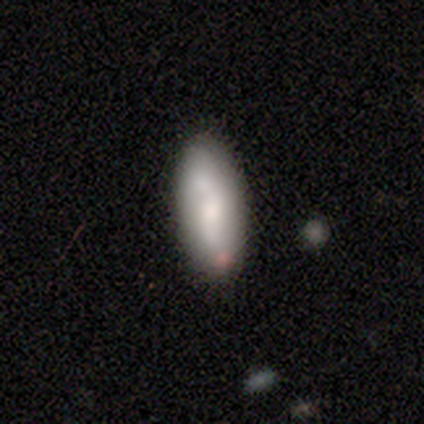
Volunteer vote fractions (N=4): smooth 75%, featured or disk 25%, star or artifact 0%. Down the decision tree: how rounded — in between (100%); merging — none (75%).